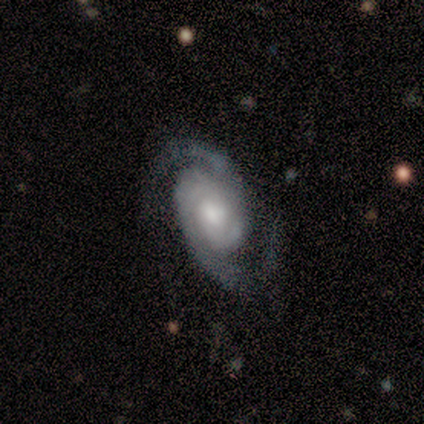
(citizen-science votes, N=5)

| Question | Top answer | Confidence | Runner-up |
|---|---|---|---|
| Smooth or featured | featured or disk | 100% | — |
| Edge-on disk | no | 100% | — |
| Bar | weak | 40% | tied: no (40%) |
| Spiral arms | yes | 100% | — |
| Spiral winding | medium | 100% | — |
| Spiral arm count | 2 | 100% | — |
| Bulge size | moderate | 60% | small (40%) |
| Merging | none | 60% | minor disturbance (40%) |